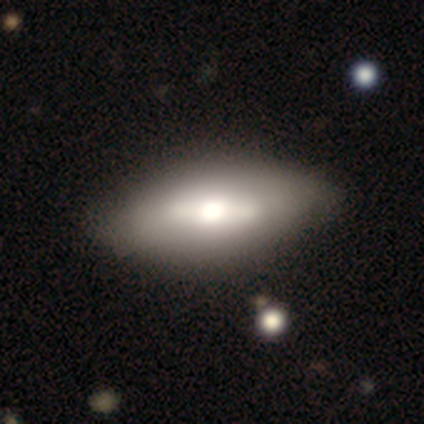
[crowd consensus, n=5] Smooth or featured? smooth (60%)
How rounded? in between (100%)
Merging? none (100%)